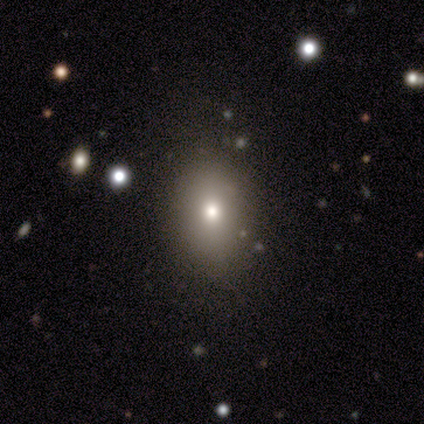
Q: Smooth or featured?
A: smooth (75%); runner-up: star or artifact (25%)
Q: How rounded?
A: in between (100%)
Q: Merging?
A: none (100%)